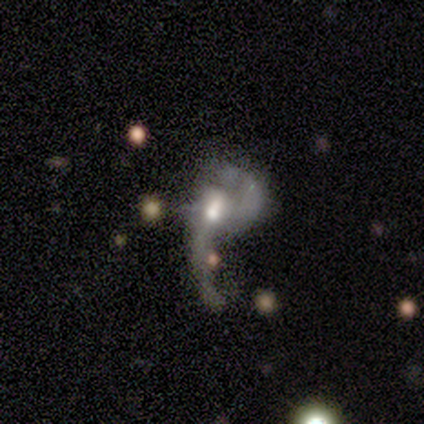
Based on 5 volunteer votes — This appears to be a featured or disk galaxy (100%) with no bar (60%), 2 (60%) loose (80%) spiral arms (100%) and a moderate central bulge (60%). Merging: major disturbance (40%).